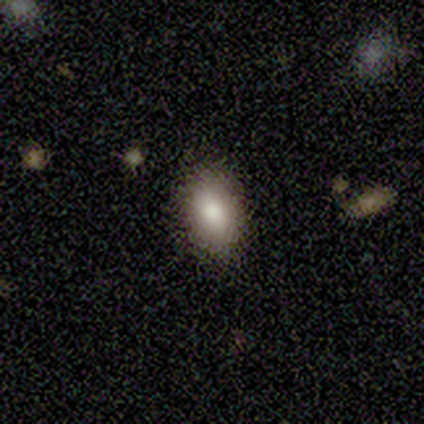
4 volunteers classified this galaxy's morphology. Smooth or featured? smooth (100%)
How rounded? in between (75%)
Merging? none (75%)